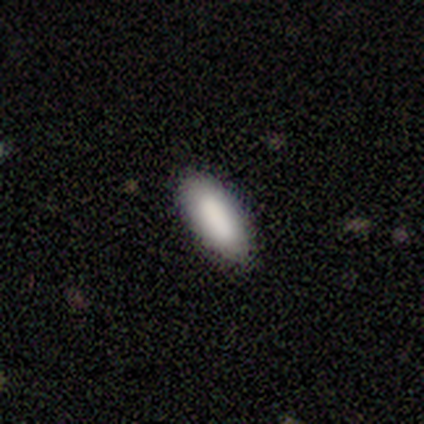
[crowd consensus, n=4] Consensus on every question: smooth or featured — smooth (100%); how rounded — in between (100%); merging — none (100%).